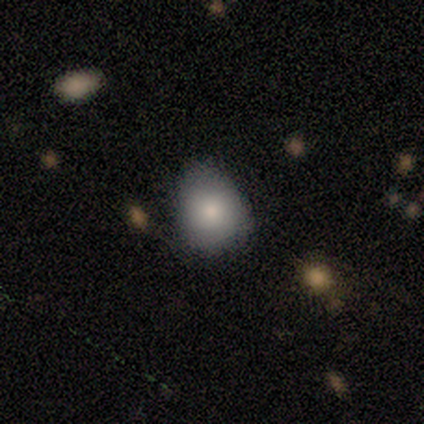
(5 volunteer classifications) Smooth or featured? smooth (80%)
How rounded? round (100%)
Merging? none (75%)